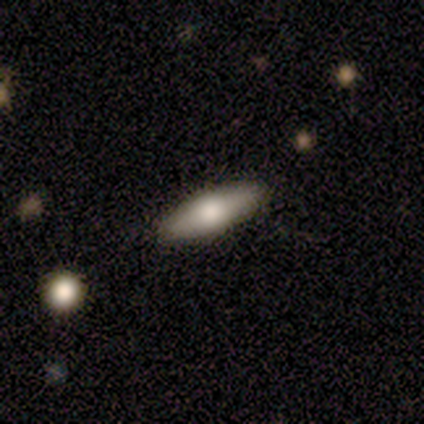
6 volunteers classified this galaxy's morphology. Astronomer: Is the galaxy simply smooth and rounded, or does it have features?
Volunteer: featured or disk — 100%.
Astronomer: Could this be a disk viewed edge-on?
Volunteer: yes — 83%.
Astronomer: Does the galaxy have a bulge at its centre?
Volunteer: rounded — 100%.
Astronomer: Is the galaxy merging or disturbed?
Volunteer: none — 100%.